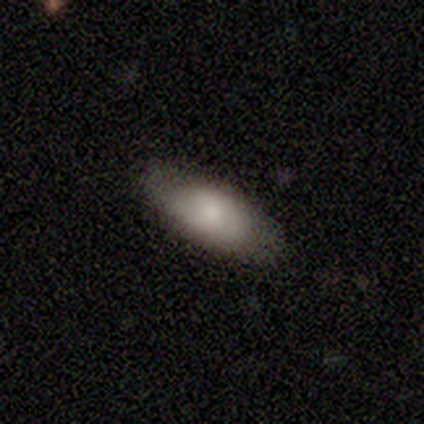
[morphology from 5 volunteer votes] smooth 60%, featured or disk 40%, star or artifact 0%. Down the decision tree: how rounded — in between (100%); merging — none (100%).